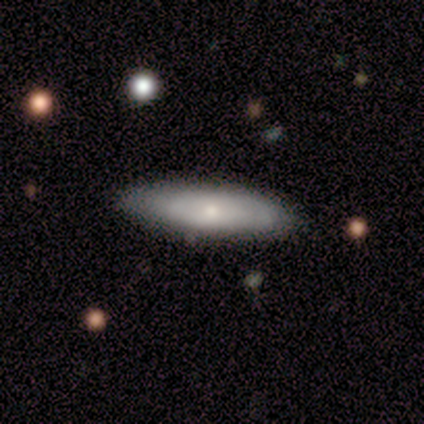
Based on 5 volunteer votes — This appears to be a smooth galaxy with no disk features (100%) that is cigar-shaped (60%). Merging: none (80%).